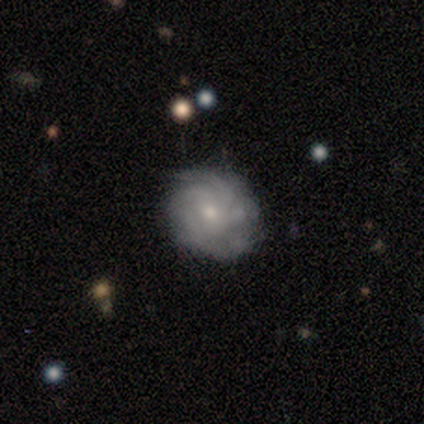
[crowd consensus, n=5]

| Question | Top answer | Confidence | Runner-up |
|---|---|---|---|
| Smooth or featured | smooth | 60% | featured or disk (40%) |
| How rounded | round | 100% | — |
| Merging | minor disturbance | 60% | none (40%) |